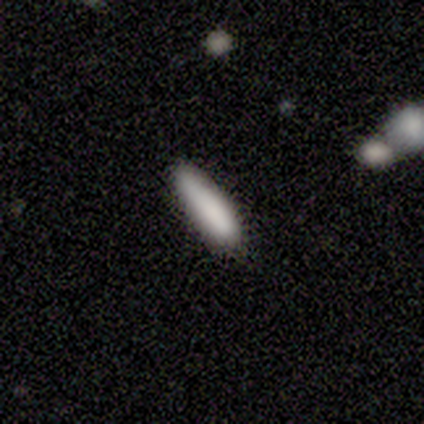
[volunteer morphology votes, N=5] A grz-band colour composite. It shows a smooth galaxy with no disk features (100%) that is cigar-shaped (80%). Merging: none (100%).